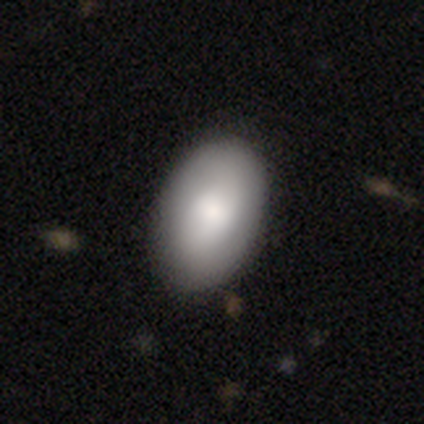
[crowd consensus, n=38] A smooth galaxy with no disk features (87%) that is in between round and cigar-shaped (97%).

Vote fractions:
- Smooth or featured? smooth: 87% / star or artifact: 8% / featured or disk: 5%
- How rounded? in between: 97% / round: 3% / cigar-shaped: 0%
- Merging? none: 51% / minor disturbance: 9% / merger: 9% / major disturbance: 3%